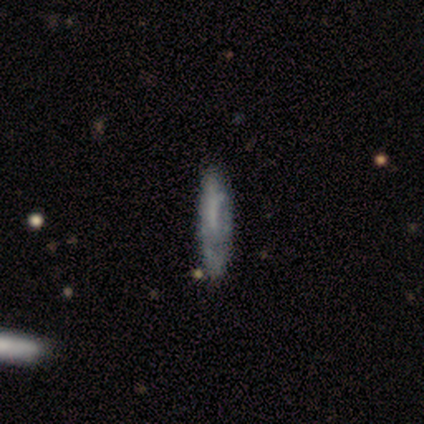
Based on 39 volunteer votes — Smooth or featured?
  - smooth: 51% *
  - featured or disk: 46%
  - star or artifact: 3%
How rounded?
  - cigar-shaped: 85% *
  - in between: 15%
  - round: 0%
Merging?
  - none: 63% *
  - minor disturbance: 29%
  - major disturbance: 5%
  - merger: 3%